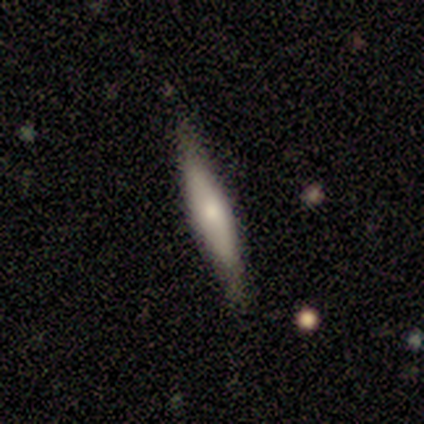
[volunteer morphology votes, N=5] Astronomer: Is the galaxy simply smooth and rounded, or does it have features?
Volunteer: featured or disk — 60% (runner-up: smooth, 40%).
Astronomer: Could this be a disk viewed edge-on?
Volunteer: yes — 100%.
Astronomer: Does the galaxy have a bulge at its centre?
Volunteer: rounded — 67%.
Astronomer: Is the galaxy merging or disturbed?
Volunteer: none — 60% (runner-up: minor disturbance, 40%).